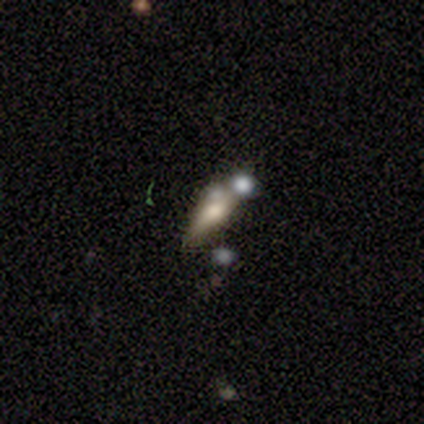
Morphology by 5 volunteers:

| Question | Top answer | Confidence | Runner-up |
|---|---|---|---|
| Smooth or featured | star or artifact | 60% | smooth (40%) |